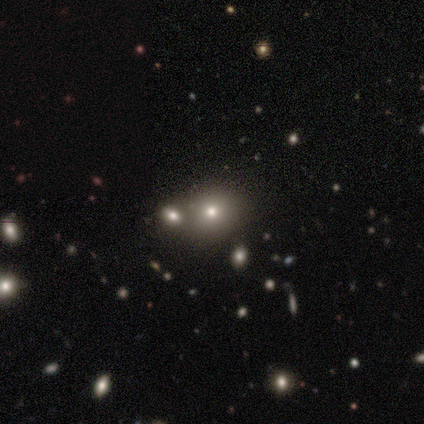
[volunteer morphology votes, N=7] Q: Smooth or featured?
A: smooth (86%); runner-up: star or artifact (14%)
Q: How rounded?
A: round (67%); runner-up: in between (33%)
Q: Merging?
A: none (67%); runner-up: merger (33%)